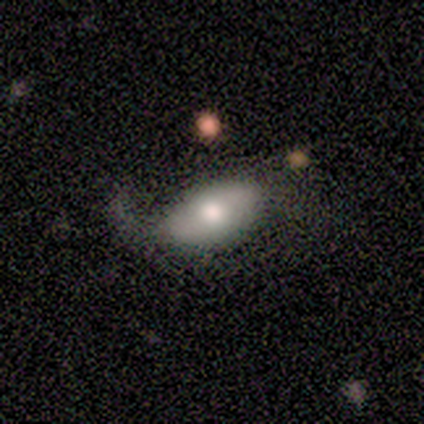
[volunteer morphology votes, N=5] This is marginally a smooth galaxy (40%, tied with featured or disk). How rounded: clearly in between (100%). Merging: possibly major disturbance (50%).